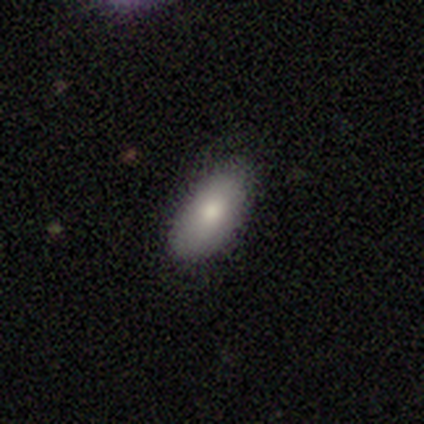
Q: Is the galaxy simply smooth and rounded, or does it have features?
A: smooth — 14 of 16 (88%).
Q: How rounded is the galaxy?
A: in between — 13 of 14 (93%).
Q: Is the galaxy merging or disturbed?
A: none — 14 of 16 (88%).